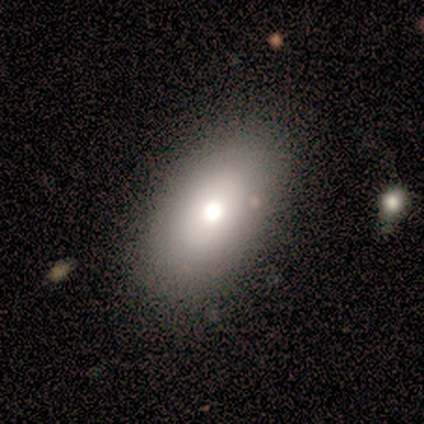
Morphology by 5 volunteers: type=smooth (100%); roundness=in between (100%); merging=none (100%).